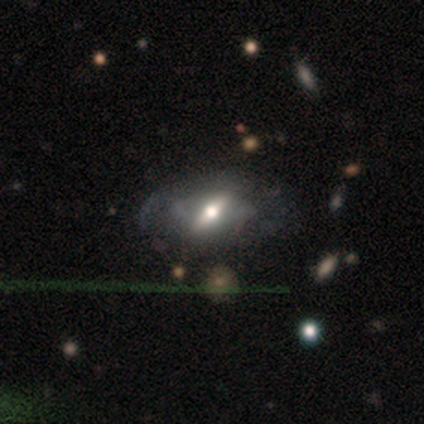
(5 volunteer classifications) Q: Smooth or featured?
A: featured or disk (80%); runner-up: smooth (20%)
Q: Edge-on disk?
A: no (75%); runner-up: yes (25%)
Q: Bar?
A: strong (67%); runner-up: weak (33%)
Q: Spiral arms?
A: no (67%); runner-up: yes (33%)
Q: Bulge size?
A: large (33%); tied with: moderate (33%); small (33%)
Q: Merging?
A: minor disturbance (60%); runner-up: none (40%)